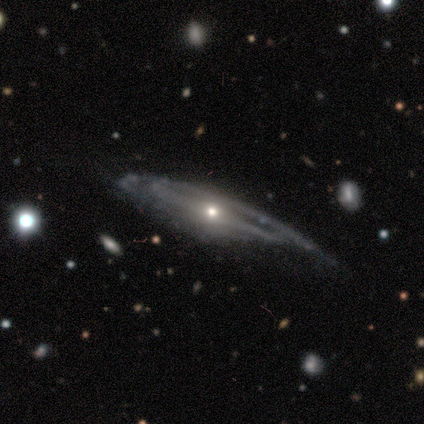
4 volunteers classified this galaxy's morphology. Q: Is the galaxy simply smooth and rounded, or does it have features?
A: featured or disk — 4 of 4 (100%).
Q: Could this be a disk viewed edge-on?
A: no — 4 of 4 (100%).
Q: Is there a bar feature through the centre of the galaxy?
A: strong — 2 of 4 (50%).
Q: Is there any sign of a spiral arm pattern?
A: yes — 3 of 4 (75%).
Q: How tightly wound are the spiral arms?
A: medium — 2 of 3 (67%).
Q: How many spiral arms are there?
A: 2 — 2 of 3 (67%).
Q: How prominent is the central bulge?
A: moderate — 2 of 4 (50%).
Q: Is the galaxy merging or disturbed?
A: minor disturbance — 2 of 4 (50%).